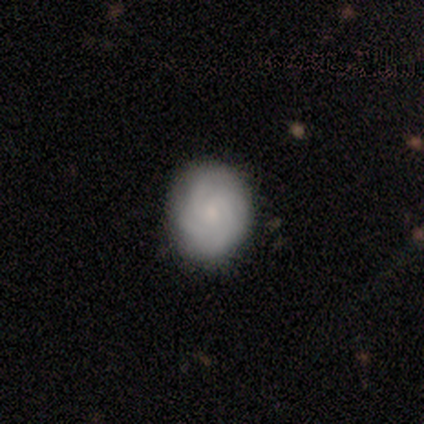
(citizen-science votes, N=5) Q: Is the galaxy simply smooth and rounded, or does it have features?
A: smooth — 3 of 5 (60%).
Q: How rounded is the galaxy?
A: round — 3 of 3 (100%).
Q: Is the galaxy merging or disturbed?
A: none — 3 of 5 (60%).